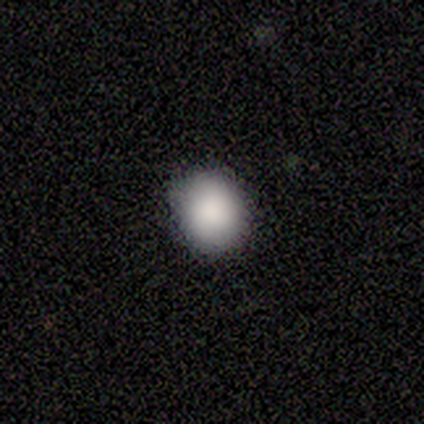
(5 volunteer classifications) This appears to be a smooth galaxy with no disk features (80%) that is round (75%). Merging: none (60%).